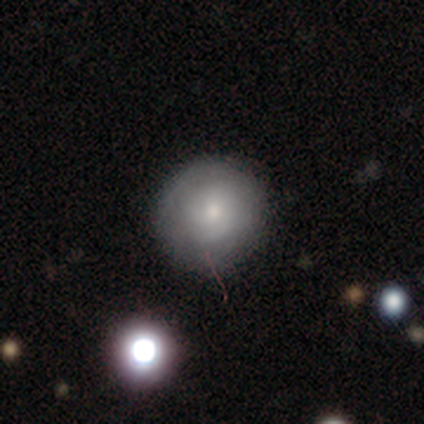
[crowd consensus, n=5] Smooth or featured?
  - smooth: 40% * (tied)
  - featured or disk: 40% * (tied)
  - star or artifact: 20%
How rounded?
  - round: 100% *
  - in between: 0%
  - cigar-shaped: 0%
Merging?
  - none: 75% *
  - minor disturbance: 25%
  - major disturbance: 0%
  - merger: 0%